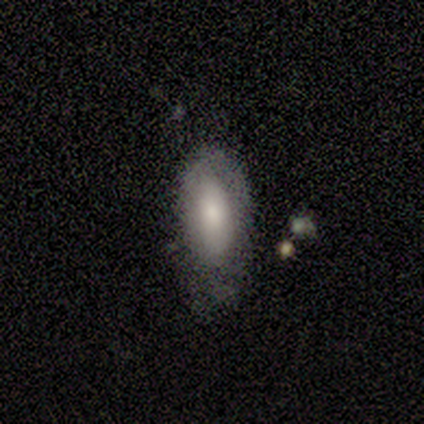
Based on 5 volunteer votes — smooth 100%, featured or disk 0%, star or artifact 0%. Down the decision tree: how rounded — in between (100%); merging — none (60%).